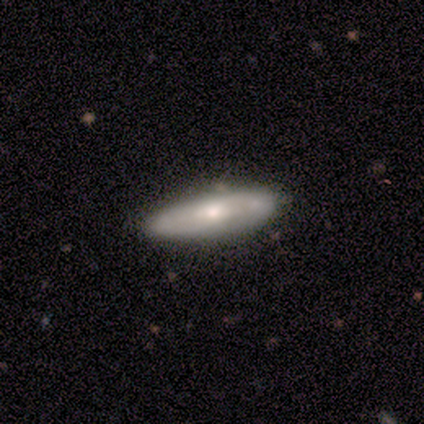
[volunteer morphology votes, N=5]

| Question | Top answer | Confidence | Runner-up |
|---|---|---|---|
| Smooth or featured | smooth | 80% | featured or disk (20%) |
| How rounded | in between | 75% | cigar-shaped (25%) |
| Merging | none | 60% | minor disturbance (40%) |